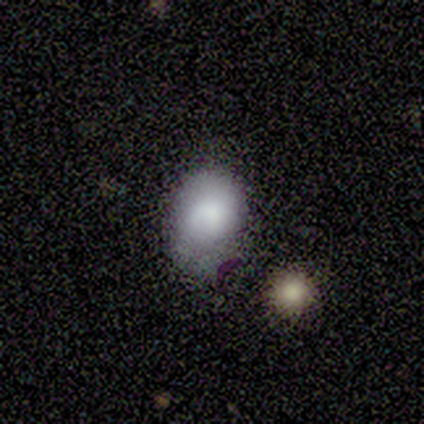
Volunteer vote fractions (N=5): smooth 100%, featured or disk 0%, star or artifact 0%. Down the decision tree: how rounded — in between (80%); merging — none (80%).